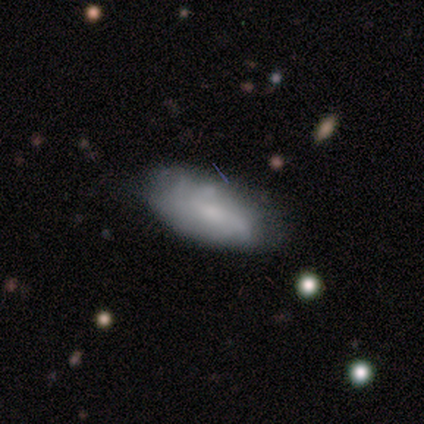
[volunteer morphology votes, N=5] This appears to be a smooth galaxy with no disk features (100%) that is in between round and cigar-shaped (80%). Merging: none (80%).